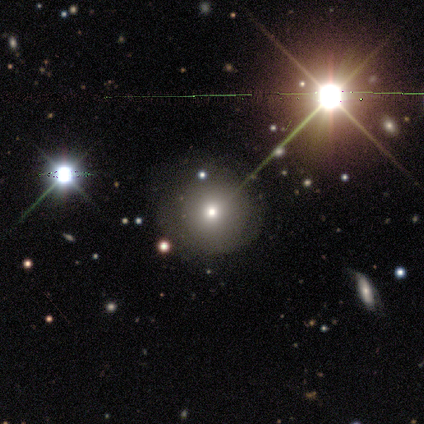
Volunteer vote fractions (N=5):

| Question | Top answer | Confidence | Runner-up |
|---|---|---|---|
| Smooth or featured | smooth | 60% | star or artifact (40%) |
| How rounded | round | 100% | — |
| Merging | none | 100% | — |